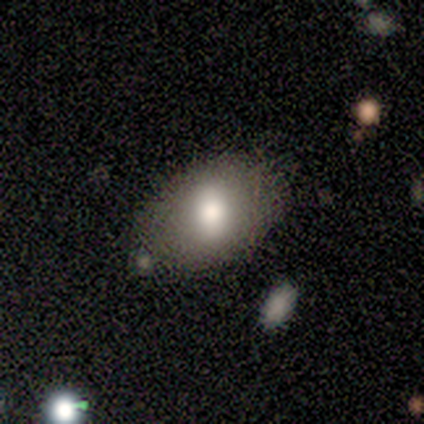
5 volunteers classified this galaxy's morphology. smooth_or_featured: smooth (p=0.60) [alt: featured or disk p=0.40]
how_rounded: in between (p=1.00)
merging: major disturbance (p=0.40) [alt: none p=0.20]